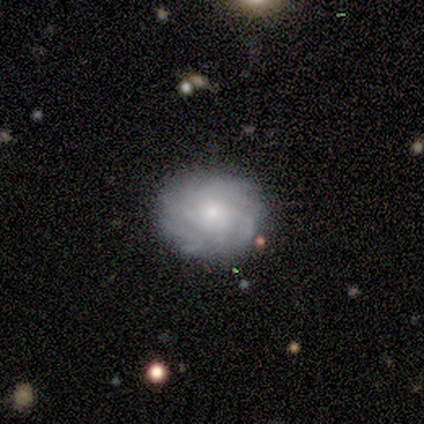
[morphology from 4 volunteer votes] smooth-or-featured: featured or disk: 75% | smooth: 25% | star or artifact: 0%
  disk-edge-on: no: 100% | yes: 0%
    bar: no: 100% | strong: 0% | weak: 0%
    has-spiral-arms: yes: 100% | no: 0%
      spiral-winding: tight: 67% | medium: 33% | loose: 0%
      spiral-arm-count: can't tell: 67% | 4: 33% | 1: 0% | 2: 0% | 3: 0% | more than 4: 0%
    bulge-size: small: 67% | moderate: 33% | dominant: 0% | large: 0% | none: 0%
  merging: none: 75% | minor disturbance: 25% | major disturbance: 0% | merger: 0%